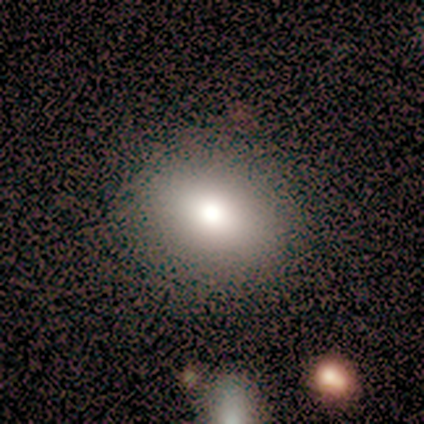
This is likely a smooth galaxy (75%). How rounded: clearly in between (100%). Merging: clearly none (100%).